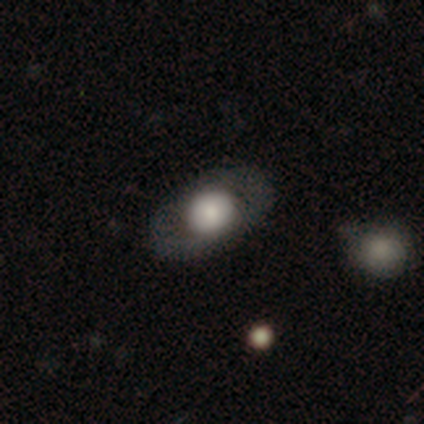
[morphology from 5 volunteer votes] smooth-or-featured: smooth: 80% | featured or disk: 20% | star or artifact: 0%
  how-rounded: round: 100% | in between: 0% | cigar-shaped: 0%
  merging: none: 80% | minor disturbance: 20% | major disturbance: 0% | merger: 0%